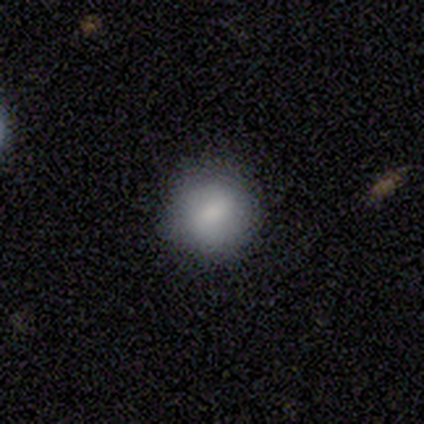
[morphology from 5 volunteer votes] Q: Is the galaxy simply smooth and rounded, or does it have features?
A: smooth — 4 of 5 (80%).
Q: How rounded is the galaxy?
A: round — 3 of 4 (75%).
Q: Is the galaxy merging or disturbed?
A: none — 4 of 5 (80%).